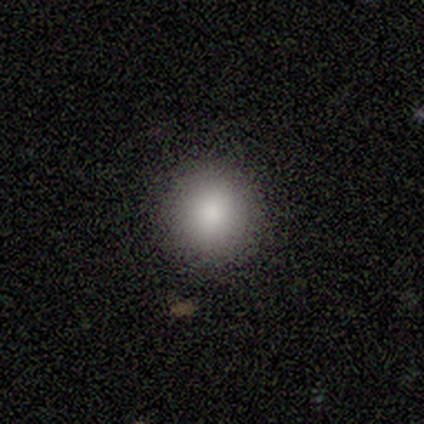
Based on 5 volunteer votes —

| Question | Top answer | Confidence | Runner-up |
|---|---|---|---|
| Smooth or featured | smooth | 80% | featured or disk (20%) |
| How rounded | round | 100% | — |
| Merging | none | 100% | — |